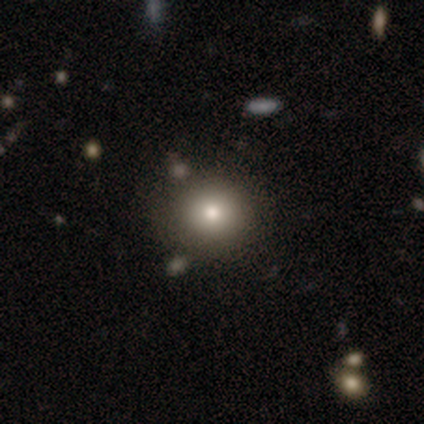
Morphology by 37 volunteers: Smooth or featured? 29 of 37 (78%) said smooth. How rounded? 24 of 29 (83%) said round. Merging? 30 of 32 (94%) said none.